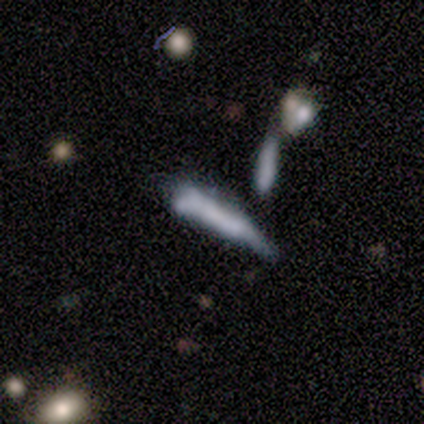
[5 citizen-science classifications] This is clearly a smooth galaxy (80%). How rounded: clearly cigar-shaped (100%). Merging: possibly minor disturbance (50%).